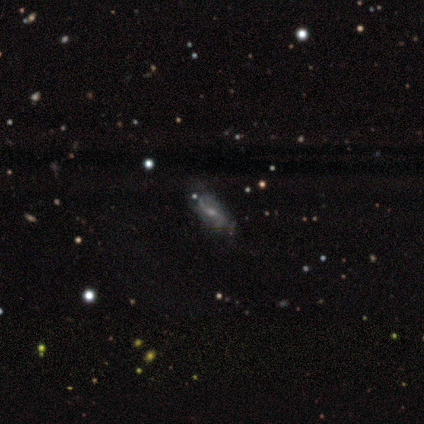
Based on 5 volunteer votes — This appears to be a featured or disk galaxy (80%) with a weak bar (100%), 2 (100%) loose (75%) spiral arms (100%) and a moderate central bulge (50%, tied with small). Merging: none (80%).